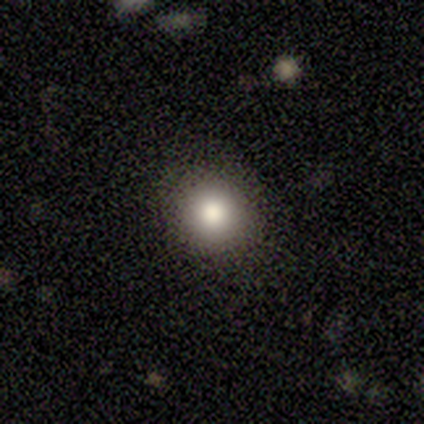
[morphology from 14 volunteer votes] smooth_or_featured: smooth (p=0.93) [alt: star or artifact p=0.07]
how_rounded: round (p=0.92) [alt: in between p=0.08]
merging: none (p=0.77) [alt: minor disturbance p=0.23]